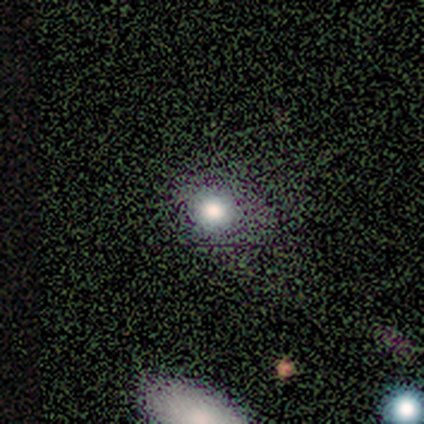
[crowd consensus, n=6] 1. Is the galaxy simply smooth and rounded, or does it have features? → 67% smooth, 17% featured or disk, 17% star or artifact.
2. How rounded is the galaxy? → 100% round, 0% in between, 0% cigar-shaped.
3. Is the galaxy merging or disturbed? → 80% none, 20% minor disturbance, 0% major disturbance, 0% merger.